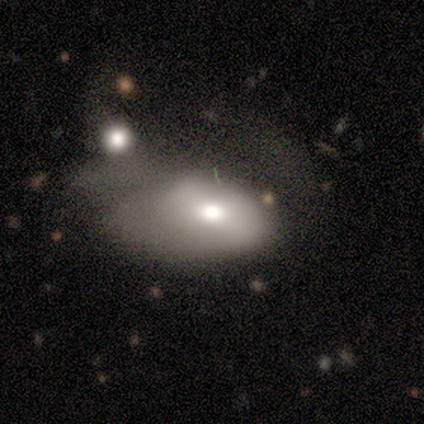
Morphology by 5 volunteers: Smooth or featured? 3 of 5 (60%) said smooth. How rounded? 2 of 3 (67%) said in between. Merging? 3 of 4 (75%) said major disturbance.